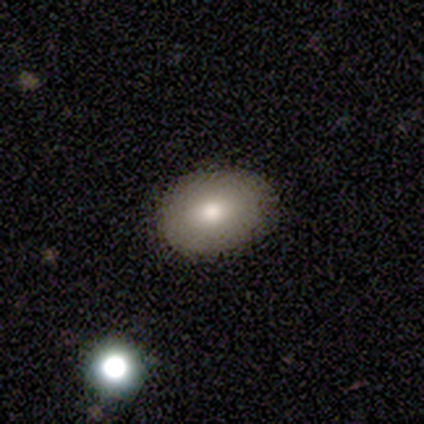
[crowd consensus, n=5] smooth_or_featured: smooth (p=0.60) [alt: featured or disk p=0.20]
how_rounded: round (p=0.67) [alt: in between p=0.33]
merging: none (p=0.75) [alt: major disturbance p=0.25]